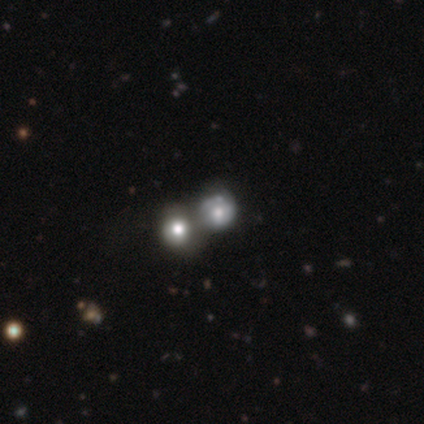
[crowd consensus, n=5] Smooth or featured? 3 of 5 (60%) said smooth. How rounded? 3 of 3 (100%) said round. Merging? 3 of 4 (75%) said merger.